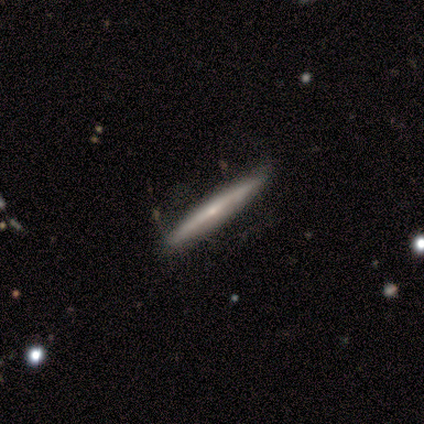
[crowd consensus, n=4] A featured or disk galaxy (75%) viewed edge-on (100%) with no central bulge (67%). Merging: none (75%).